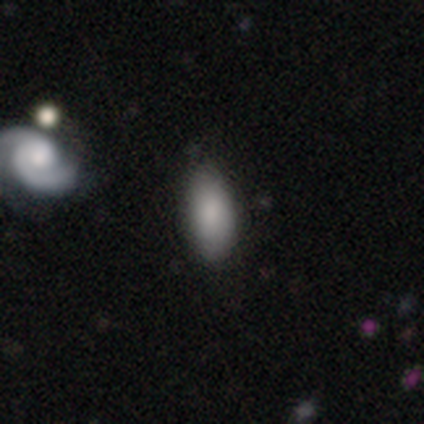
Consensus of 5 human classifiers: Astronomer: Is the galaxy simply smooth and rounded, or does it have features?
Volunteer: smooth — 80%.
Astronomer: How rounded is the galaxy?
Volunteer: in between — 100%.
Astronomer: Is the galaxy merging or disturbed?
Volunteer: none — 80%.